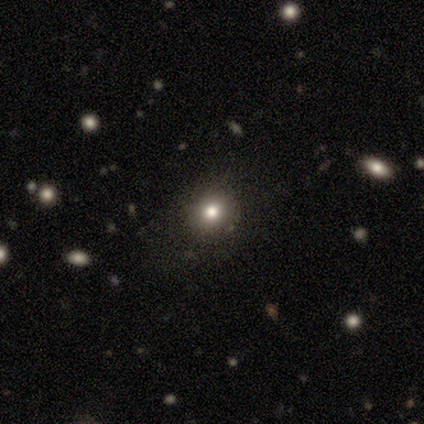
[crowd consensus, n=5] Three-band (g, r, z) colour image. It shows a smooth galaxy with no disk features (60%) that is round (100%). Merging: none (100%).